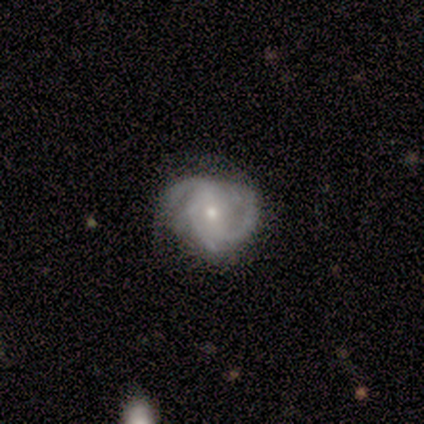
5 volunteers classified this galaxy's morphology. Smooth or featured?
  - featured or disk: 100% *
  - smooth: 0%
  - star or artifact: 0%
Edge-on disk?
  - no: 100% *
  - yes: 0%
Bar?
  - strong: 40% * (tied)
  - no: 40% * (tied)
  - weak: 20%
Spiral arms?
  - yes: 100% *
  - no: 0%
Spiral winding?
  - medium: 60% *
  - tight: 40%
  - loose: 0%
Spiral arm count?
  - 3: 80% *
  - more than 4: 20%
  - 1: 0%
  - 2: 0%
  - 4: 0%
  - can't tell: 0%
Bulge size?
  - moderate: 80% *
  - small: 20%
  - dominant: 0%
  - large: 0%
  - none: 0%
Merging?
  - none: 60% *
  - minor disturbance: 20%
  - major disturbance: 20%
  - merger: 0%